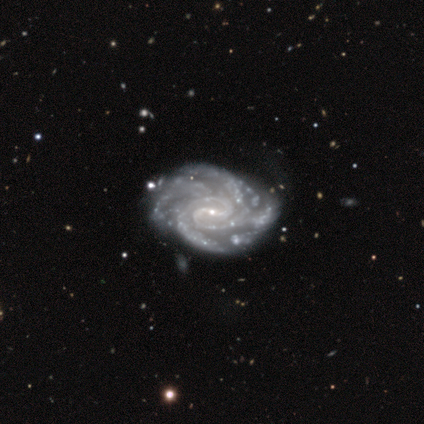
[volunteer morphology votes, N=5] Volunteers were most divided on "spiral winding": tight: 50%, medium: 25%, loose: 25%. More confident: smooth or featured — featured or disk (100%); spiral arms — yes (100%); edge-on disk — no (80%); merging — none (80%); bar — strong (75%); spiral arm count — can't tell (75%); bulge size — small (75%).